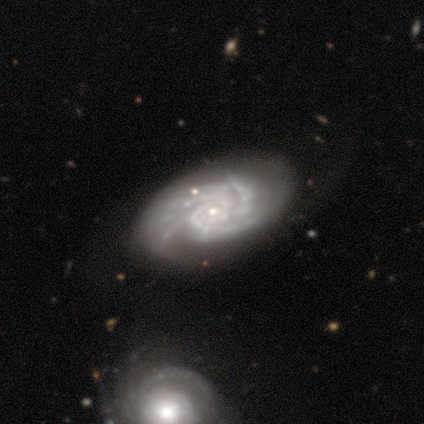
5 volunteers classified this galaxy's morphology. Smooth or featured? 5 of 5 (100%) said featured or disk. Edge-on disk? 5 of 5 (100%) said no. Bar? 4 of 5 (80%) said no. Spiral arms? 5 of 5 (100%) said yes. Spiral winding? 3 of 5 (60%) said tight. Spiral arm count? 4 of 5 (80%) said 3. Bulge size? 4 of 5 (80%) said small. Merging? 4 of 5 (80%) said none.